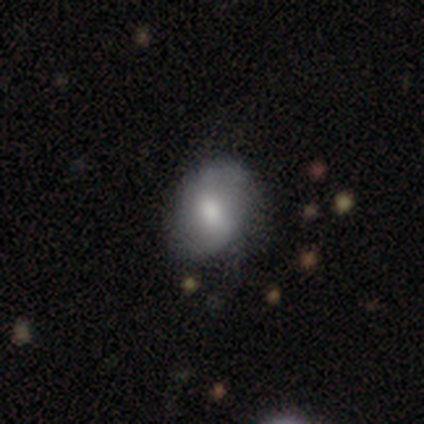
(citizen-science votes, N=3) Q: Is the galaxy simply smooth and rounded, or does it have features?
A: smooth — 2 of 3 (67%).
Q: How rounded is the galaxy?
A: in between — 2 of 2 (100%).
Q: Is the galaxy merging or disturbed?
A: none — 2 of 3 (67%).